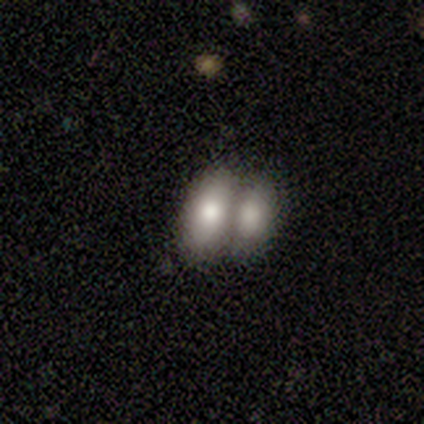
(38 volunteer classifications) smooth_or_featured: smooth (p=0.74) [alt: featured or disk p=0.18]
how_rounded: in between (p=0.86) [alt: round p=0.07]
merging: merger (p=0.89) [alt: none p=0.06]